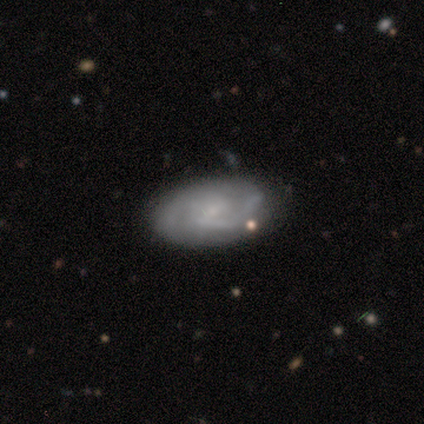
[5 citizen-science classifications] Q: Smooth or featured?
A: featured or disk (100%)
Q: Edge-on disk?
A: no (100%)
Q: Bar?
A: weak (60%); runner-up: no (40%)
Q: Spiral arms?
A: yes (100%)
Q: Spiral winding?
A: tight (40%); tied with: loose (40%)
Q: Spiral arm count?
A: 2 (60%); runner-up: 1 (20%)
Q: Bulge size?
A: moderate (40%); tied with: none (40%)
Q: Merging?
A: none (60%); runner-up: minor disturbance (20%)